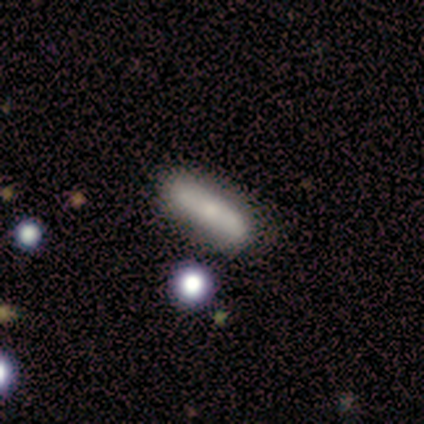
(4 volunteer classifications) A smooth galaxy with no disk features (100%) that is cigar-shaped (75%).

Vote fractions:
- Smooth or featured? smooth: 100% / featured or disk: 0% / star or artifact: 0%
- How rounded? cigar-shaped: 75% / in between: 25% / round: 0%
- Merging? none: 75% / minor disturbance: 25% / major disturbance: 0% / merger: 0%